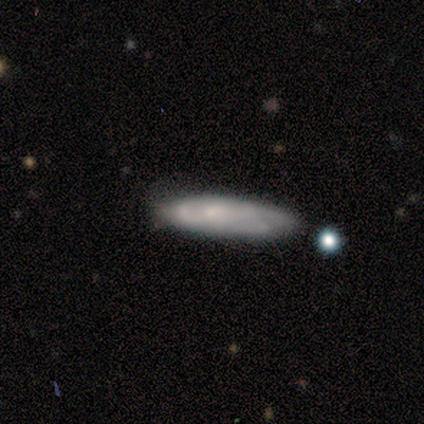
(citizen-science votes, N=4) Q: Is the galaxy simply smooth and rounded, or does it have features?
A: smooth — 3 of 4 (75%).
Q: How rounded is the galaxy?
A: cigar-shaped — 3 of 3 (100%).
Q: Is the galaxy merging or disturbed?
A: minor disturbance — 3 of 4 (75%).